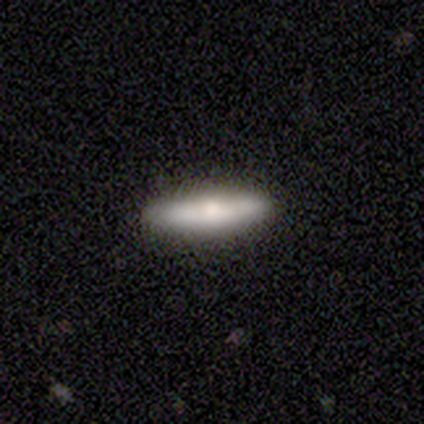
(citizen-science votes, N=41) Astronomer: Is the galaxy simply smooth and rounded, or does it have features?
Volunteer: featured or disk — 49% (runner-up: smooth, 46%).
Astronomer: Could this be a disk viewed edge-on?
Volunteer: yes — 85%.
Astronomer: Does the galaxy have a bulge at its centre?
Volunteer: rounded — 100%.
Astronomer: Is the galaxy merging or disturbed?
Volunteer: none — 90%.